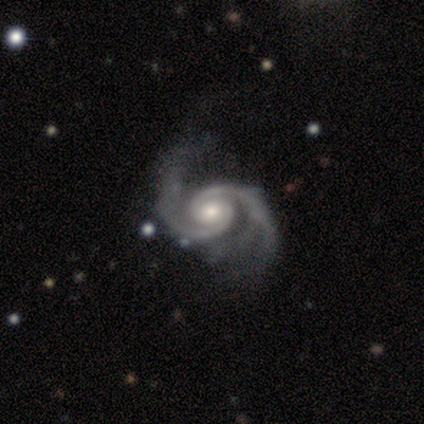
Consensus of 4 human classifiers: Morphology: type=featured or disk (50%, tied with star or artifact); edge-on=no (100%); bar=strong (50%, tied with no); spiral arms=yes (100%); winding=tight (50%, tied with medium); arm count=2 (100%); bulge=moderate (100%); merging=none (100%).